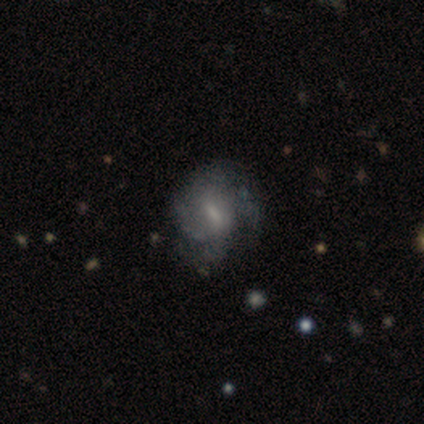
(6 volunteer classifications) smooth-or-featured: featured or disk: 83% | smooth: 17% | star or artifact: 0%
  disk-edge-on: no: 100% | yes: 0%
    bar: weak: 80% | strong: 20% | no: 0%
    has-spiral-arms: yes: 100% | no: 0%
      spiral-winding: tight: 40% (tied) | medium: 40% (tied) | loose: 20%
      spiral-arm-count: 3: 40% | 2: 20% | 4: 20% | can't tell: 20% | 1: 0% | more than 4: 0%
    bulge-size: small: 80% | moderate: 20% | dominant: 0% | large: 0% | none: 0%
  merging: none: 67% | minor disturbance: 17% | major disturbance: 17% | merger: 0%